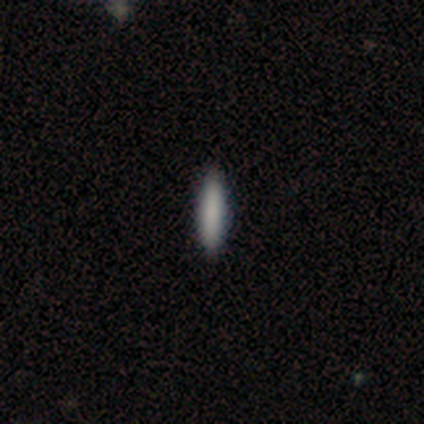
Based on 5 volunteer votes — smooth-or-featured: smooth: 60% | featured or disk: 20% | star or artifact: 20%
  how-rounded: cigar-shaped: 67% | in between: 33% | round: 0%
  merging: none: 100% | minor disturbance: 0% | major disturbance: 0% | merger: 0%